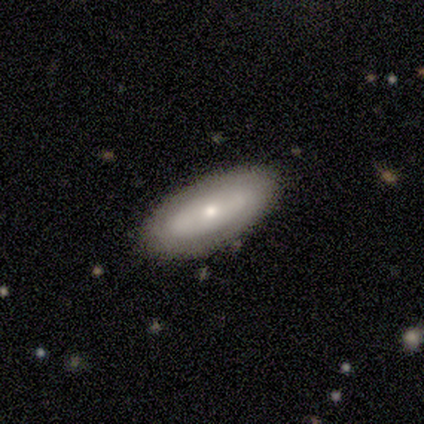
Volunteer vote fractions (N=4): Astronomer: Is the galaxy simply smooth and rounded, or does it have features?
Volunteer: featured or disk — 75%.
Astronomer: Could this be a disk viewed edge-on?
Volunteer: yes — 67%.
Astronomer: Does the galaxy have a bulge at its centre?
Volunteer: rounded — 100%.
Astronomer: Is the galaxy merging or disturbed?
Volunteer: none — 75%.